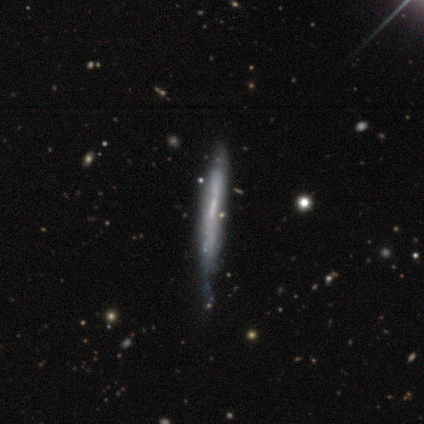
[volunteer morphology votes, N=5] featured or disk 80%, smooth 20%, star or artifact 0%. Down the decision tree: edge-on disk — yes (100%); edge-on bulge — none (100%); merging — none (60%).